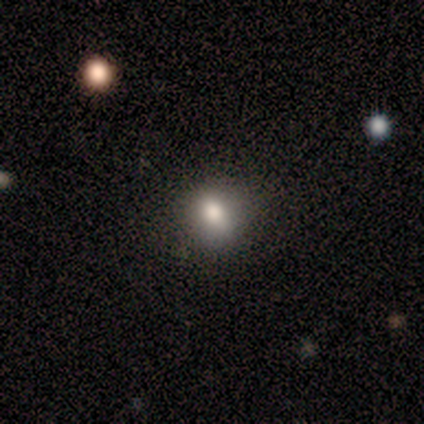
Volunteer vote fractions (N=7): A smooth galaxy with no disk features (100%) that is round (100%). Merging: none (86%).